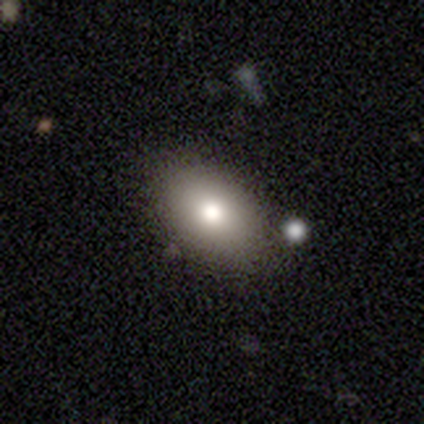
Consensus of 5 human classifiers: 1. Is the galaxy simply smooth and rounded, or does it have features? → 100% smooth, 0% featured or disk, 0% star or artifact.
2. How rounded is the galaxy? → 100% in between, 0% round, 0% cigar-shaped.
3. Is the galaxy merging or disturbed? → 80% none, 20% minor disturbance, 0% major disturbance, 0% merger.